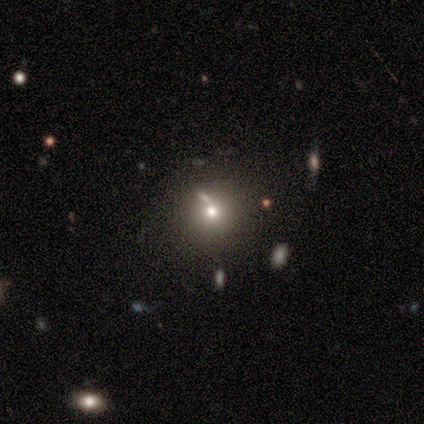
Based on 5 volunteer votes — Smooth or featured?
  - featured or disk: 40% * (tied)
  - star or artifact: 40% * (tied)
  - smooth: 20%
Edge-on disk?
  - no: 100% *
  - yes: 0%
Bar?
  - no: 100% *
  - strong: 0%
  - weak: 0%
Spiral arms?
  - no: 100% *
  - yes: 0%
Bulge size?
  - dominant: 50% * (tied)
  - small: 50% * (tied)
  - large: 0%
  - moderate: 0%
  - none: 0%
Merging?
  - none: 67% *
  - merger: 33%
  - minor disturbance: 0%
  - major disturbance: 0%